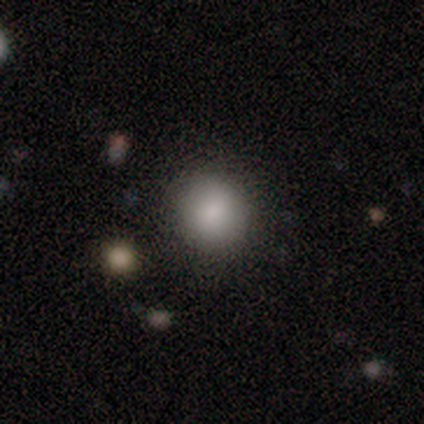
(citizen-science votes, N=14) Overall: smooth (86%). How rounded: round (100%). Merging: none (92%).